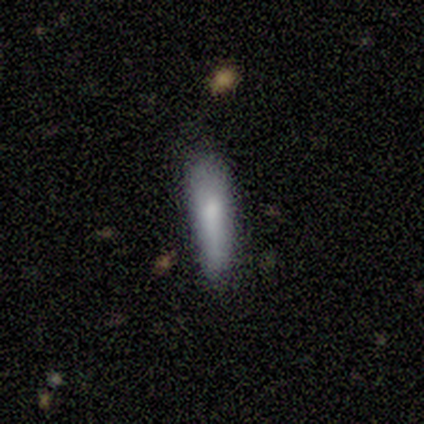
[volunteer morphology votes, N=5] This is clearly a smooth galaxy (100%). How rounded: clearly cigar-shaped (80%). Merging: likely none (60%).